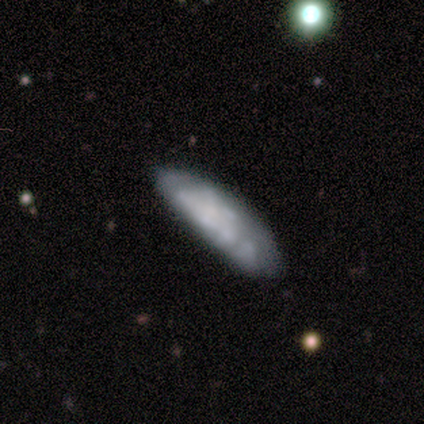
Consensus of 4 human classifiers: A smooth galaxy with no disk features (50%, tied with featured or disk) that is in between round and cigar-shaped (50%, tied with cigar-shaped). Merging: none (100%).